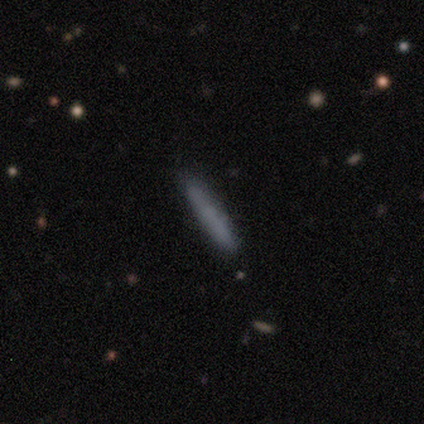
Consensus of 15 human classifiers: Volunteers were most divided on "smooth or featured": smooth: 80%, star or artifact: 13%, featured or disk: 7%. More confident: how rounded — cigar-shaped (100%); merging — none (100%).